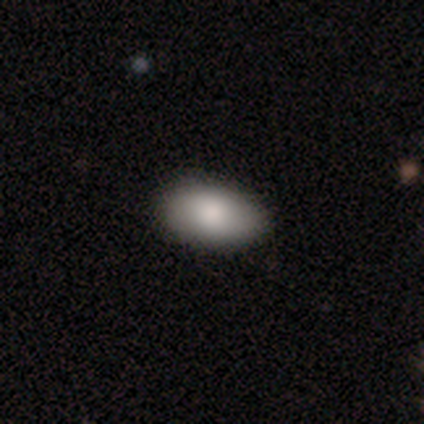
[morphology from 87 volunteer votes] Q: Smooth or featured?
A: smooth (85%); runner-up: featured or disk (11%)
Q: How rounded?
A: in between (95%); runner-up: round (4%)
Q: Merging?
A: none (93%); runner-up: minor disturbance (6%)